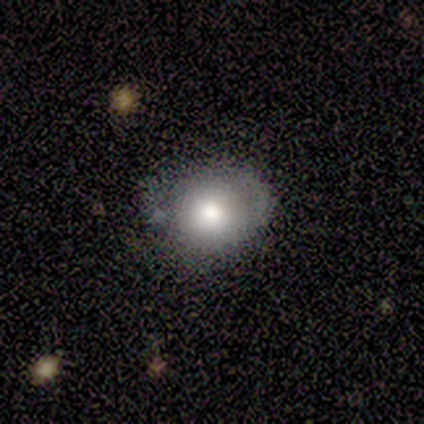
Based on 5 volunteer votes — This appears to be a smooth galaxy with no disk features (80%) that is round (100%). Merging: none (60%).